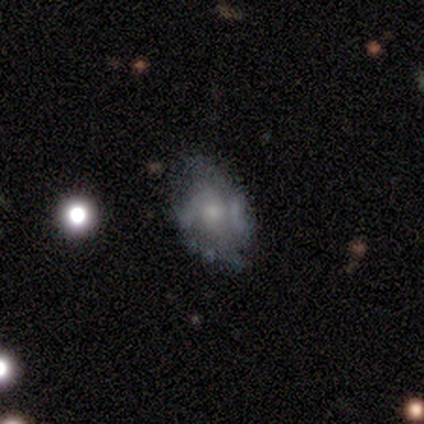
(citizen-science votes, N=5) Q: Smooth or featured?
A: featured or disk (80%); runner-up: smooth (20%)
Q: Edge-on disk?
A: no (75%); runner-up: yes (25%)
Q: Bar?
A: no (67%); runner-up: strong (33%)
Q: Spiral arms?
A: yes (100%)
Q: Spiral winding?
A: tight (67%); runner-up: medium (33%)
Q: Spiral arm count?
A: 2 (67%); runner-up: can't tell (33%)
Q: Bulge size?
A: large (33%); tied with: moderate (33%); small (33%)
Q: Merging?
A: none (100%)